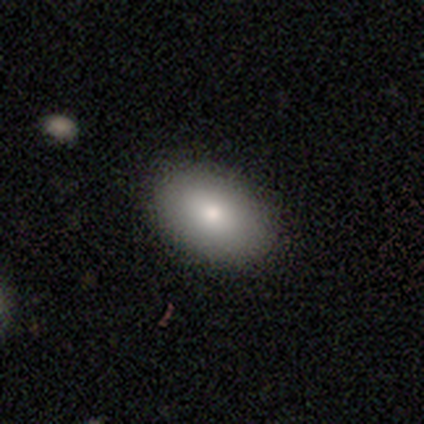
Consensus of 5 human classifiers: Smooth or featured: smooth — 100%
How rounded: in between — 80% (round — 20%)
Merging: none — 40% (tied with minor disturbance — 40%)